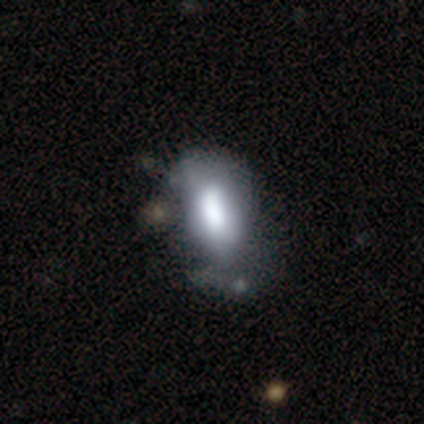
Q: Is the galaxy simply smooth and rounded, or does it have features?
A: featured or disk — 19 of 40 (48%).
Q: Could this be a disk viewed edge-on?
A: no — 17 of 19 (89%).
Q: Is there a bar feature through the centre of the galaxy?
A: no — 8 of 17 (47%).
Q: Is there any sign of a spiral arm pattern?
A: no — 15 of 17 (88%).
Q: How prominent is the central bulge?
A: large — 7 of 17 (41%).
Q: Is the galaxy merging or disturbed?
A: major disturbance — 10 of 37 (27%).